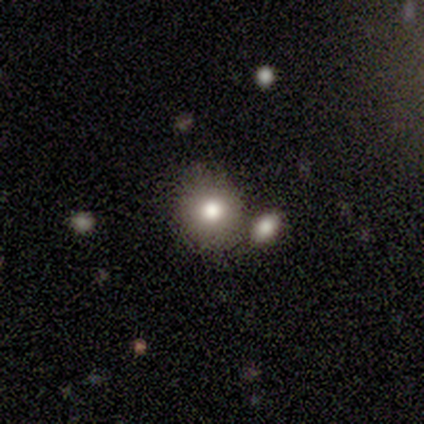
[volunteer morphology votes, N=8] A smooth galaxy with no disk features (62%) that is round (80%).

Vote fractions:
- Smooth or featured? smooth: 62% / featured or disk: 38% / star or artifact: 0%
- How rounded? round: 80% / in between: 20% / cigar-shaped: 0%
- Merging? none: 62% / merger: 25% / minor disturbance: 12% / major disturbance: 0%